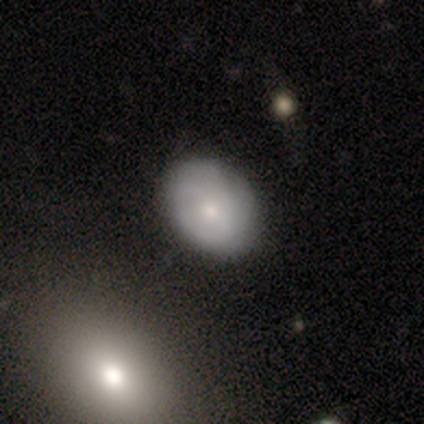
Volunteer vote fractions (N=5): Volunteers were most divided on "smooth or featured" (2-way tie): smooth: 40%, featured or disk: 40%, star or artifact: 20%. More confident: how rounded — in between (100%); merging — minor disturbance (50%).